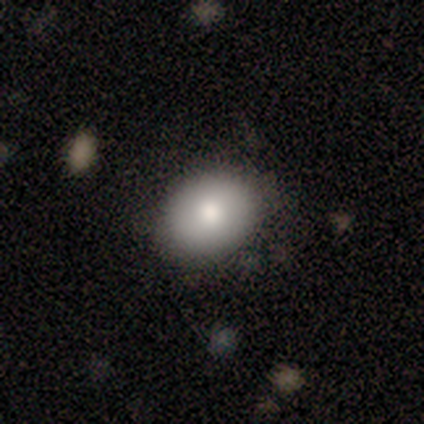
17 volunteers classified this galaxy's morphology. smooth 82%, featured or disk 18%, star or artifact 0%. Down the decision tree: how rounded — in between (79%); merging — none (82%).